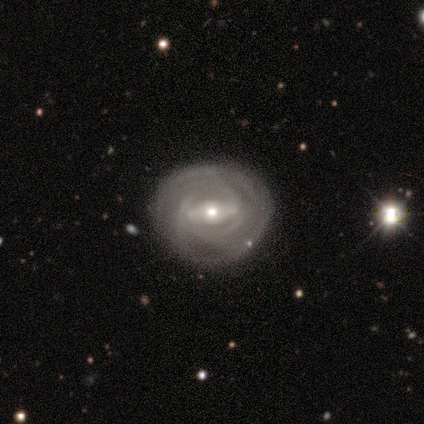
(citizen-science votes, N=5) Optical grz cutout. It shows a featured or disk galaxy (80%) with a strong bar (50%, tied with weak), 2 (33%, tied with 4 and can't tell) tight (100%) spiral arms (75%) and a small central bulge (100%). Merging: none (60%).